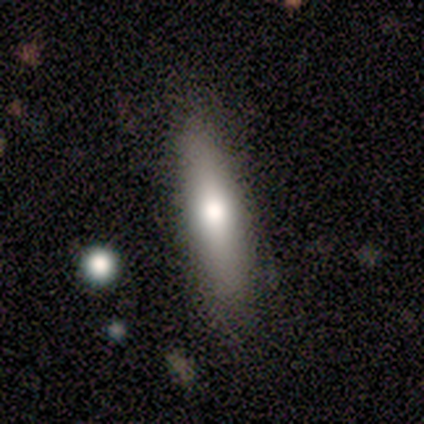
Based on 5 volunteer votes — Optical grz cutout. It shows a smooth galaxy with no disk features (60%) that is cigar-shaped (67%). Merging: none (100%).